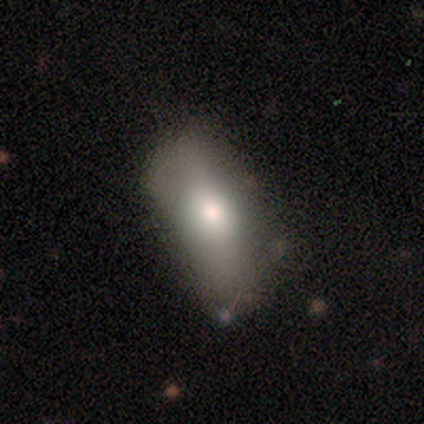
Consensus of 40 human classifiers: This appears to be a smooth galaxy with no disk features (78%) that is in between round and cigar-shaped (84%). Merging: none (41%).